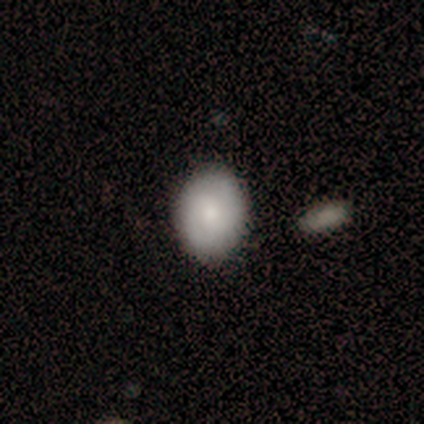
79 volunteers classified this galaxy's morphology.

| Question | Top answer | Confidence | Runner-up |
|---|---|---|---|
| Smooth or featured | smooth | 71% | featured or disk (27%) |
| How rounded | in between | 66% | round (30%) |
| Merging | none | 44% | merger (6%) |